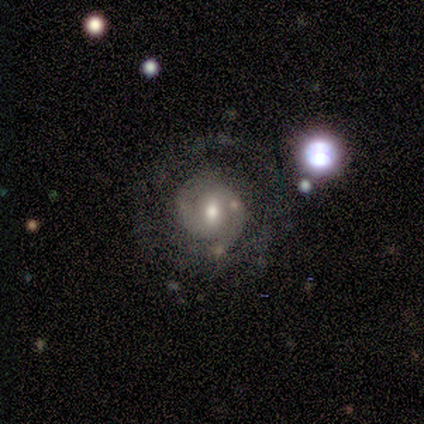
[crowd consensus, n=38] This is clearly a featured or disk galaxy (82%). It is clearly not viewed edge-on (100%). Bar: likely weak (68%). Spiral arm pattern: clearly yes (94%). Spiral arm count: likely 2 (62%). Spiral winding: possibly tight (55%). Central bulge: likely moderate (61%). Merging: likely none (71%).